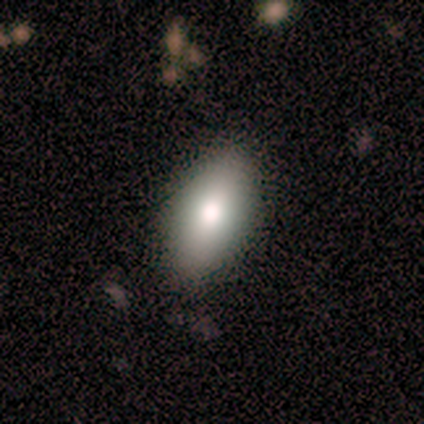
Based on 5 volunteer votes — This appears to be a smooth galaxy with no disk features (60%) that is in between round and cigar-shaped (100%). Merging: none (67%).